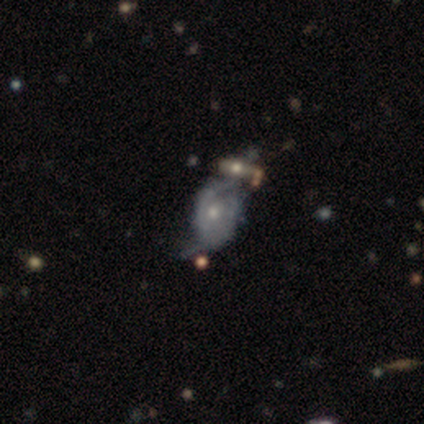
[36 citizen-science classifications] A featured or disk galaxy (67%) with no bar (65%), 2 (71%) medium (43%) spiral arms (91%) and a small central bulge (57%).

Vote fractions:
- Smooth or featured? featured or disk: 67% / smooth: 25% / star or artifact: 8%
- Edge-on disk? no: 96% / yes: 4%
- Bar? no: 65% / weak: 35% / strong: 0%
- Spiral arms? yes: 91% / no: 9%
- Spiral winding? medium: 43% / tight: 33% / loose: 24%
- Spiral arm count? 2: 71% / can't tell: 24% / 3: 5% / 1: 0% / 4: 0% / more than 4: 0%
- Bulge size? small: 57% / moderate: 39% / none: 4% / dominant: 0% / large: 0%
- Merging? none: 36% / merger: 30% / minor disturbance: 18% / major disturbance: 15%